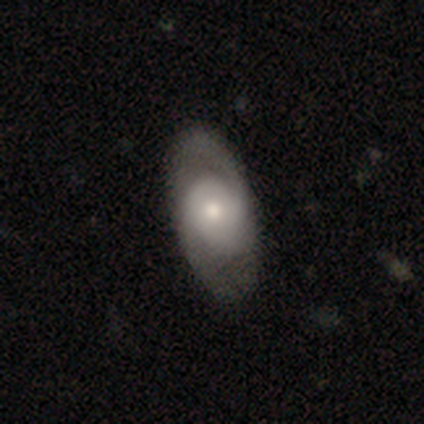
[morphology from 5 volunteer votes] smooth 60%, featured or disk 40%, star or artifact 0%. Down the decision tree: how rounded — in between (67%); merging — none (60%).